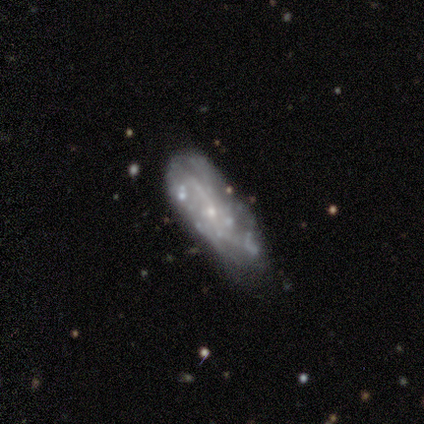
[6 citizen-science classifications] Smooth or featured?
  - featured or disk: 83% *
  - star or artifact: 17%
  - smooth: 0%
Edge-on disk?
  - no: 100% *
  - yes: 0%
Bar?
  - no: 80% *
  - weak: 20%
  - strong: 0%
Spiral arms?
  - yes: 60% *
  - no: 40%
Spiral winding?
  - loose: 67% *
  - tight: 33%
  - medium: 0%
Spiral arm count?
  - can't tell: 67% *
  - 1: 33%
  - 2: 0%
  - 3: 0%
  - 4: 0%
  - more than 4: 0%
Bulge size?
  - small: 100% *
  - dominant: 0%
  - large: 0%
  - moderate: 0%
  - none: 0%
Merging?
  - none: 100% *
  - minor disturbance: 0%
  - major disturbance: 0%
  - merger: 0%